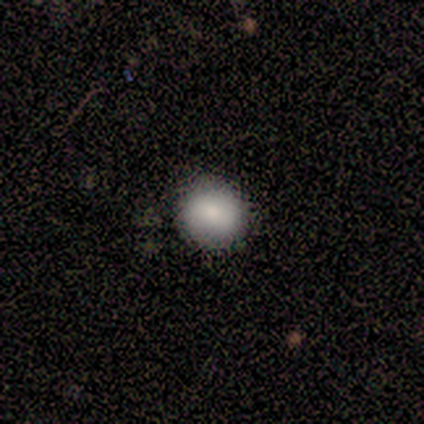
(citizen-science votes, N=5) Overall: smooth (100%). How rounded: round (60%; in between 40%). Merging: none (80%).